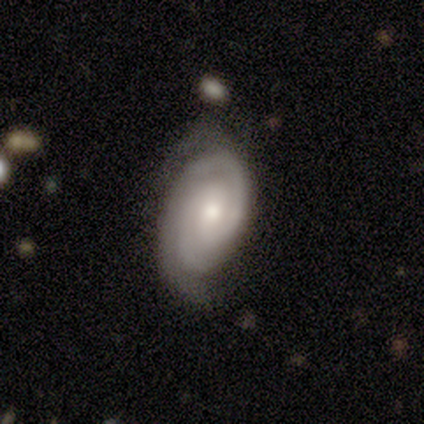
Morphology: type=featured or disk (100%); edge-on=no (100%); bar=no (60%); spiral arms=yes (100%); winding=tight (80%); arm count=2 (60%); bulge=small (80%); merging=none (80%).